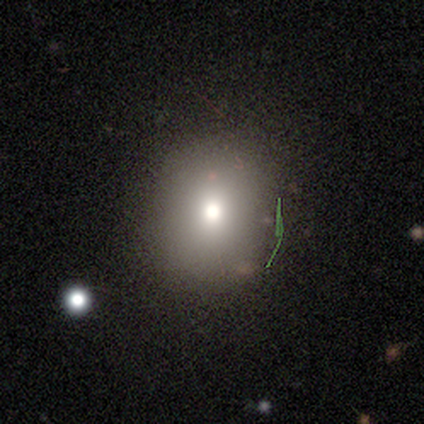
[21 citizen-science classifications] Q: Smooth or featured?
A: smooth (57%); runner-up: star or artifact (24%)
Q: How rounded?
A: round (83%); runner-up: in between (17%)
Q: Merging?
A: none (88%); runner-up: minor disturbance (6%)